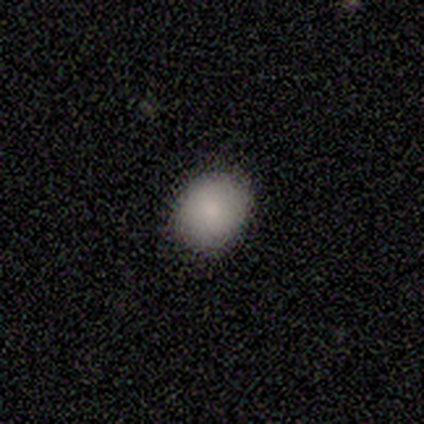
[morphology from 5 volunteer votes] A smooth galaxy with no disk features (60%) that is round (67%).

Vote fractions:
- Smooth or featured? smooth: 60% / featured or disk: 40% / star or artifact: 0%
- How rounded? round: 67% / in between: 33% / cigar-shaped: 0%
- Merging? none: 100% / minor disturbance: 0% / major disturbance: 0% / merger: 0%